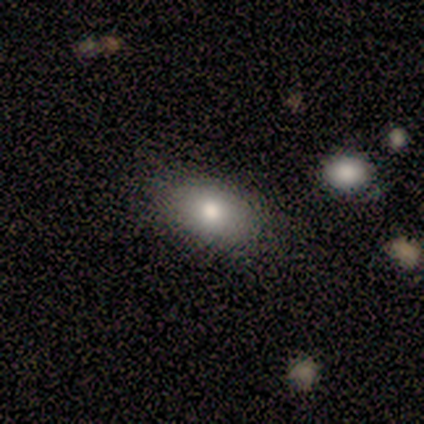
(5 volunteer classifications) smooth_or_featured: smooth (p=0.80) [alt: featured or disk p=0.20]
how_rounded: in between (p=0.75) [alt: round p=0.25]
merging: none (p=1.00)